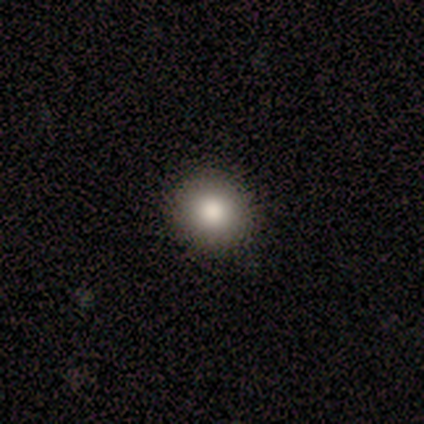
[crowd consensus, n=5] Overall: smooth (80%). How rounded: round (100%). Merging: none (100%).